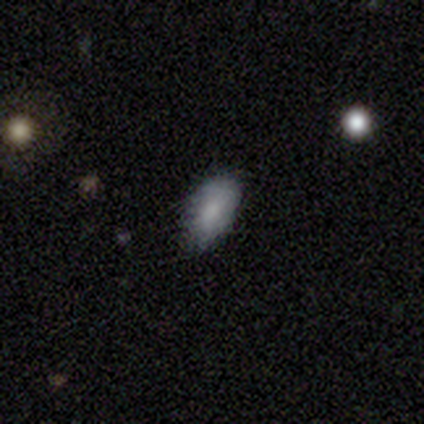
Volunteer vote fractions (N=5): smooth-or-featured: smooth: 100% | featured or disk: 0% | star or artifact: 0%
  how-rounded: in between: 80% | round: 20% | cigar-shaped: 0%
  merging: none: 60% | minor disturbance: 20% | major disturbance: 20% | merger: 0%